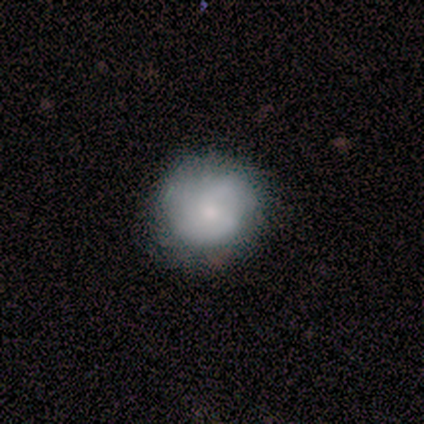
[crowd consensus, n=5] smooth-or-featured: smooth: 40% (tied) | featured or disk: 40% (tied) | star or artifact: 20%
  how-rounded: round: 100% | in between: 0% | cigar-shaped: 0%
  merging: none: 75% | major disturbance: 25% | minor disturbance: 0% | merger: 0%